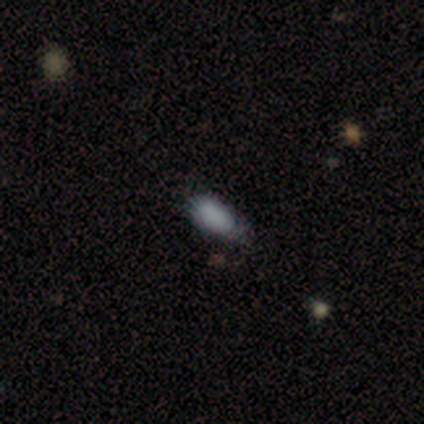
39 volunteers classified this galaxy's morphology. Smooth or featured? 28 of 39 (72%) said smooth. How rounded? 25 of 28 (89%) said in between. Merging? 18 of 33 (55%) said none.